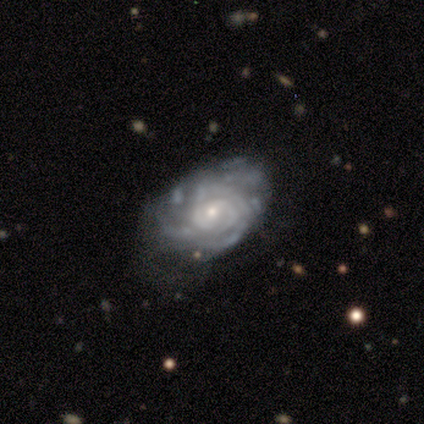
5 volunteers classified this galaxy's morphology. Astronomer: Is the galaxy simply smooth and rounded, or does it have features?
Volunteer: featured or disk — 100%.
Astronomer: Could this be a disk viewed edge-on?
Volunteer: no — 100%.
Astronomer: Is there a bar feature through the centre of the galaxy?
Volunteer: no — 60% (runner-up: weak, 40%).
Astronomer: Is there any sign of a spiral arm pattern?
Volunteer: yes — 100%.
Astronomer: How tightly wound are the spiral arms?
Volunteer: tight — 80%.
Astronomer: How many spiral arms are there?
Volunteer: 3 — 40%, tied with can't tell at 40%.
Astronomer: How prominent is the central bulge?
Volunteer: small — 60% (runner-up: moderate, 40%).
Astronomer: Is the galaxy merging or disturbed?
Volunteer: minor disturbance — 40%, tied with major disturbance at 40%.